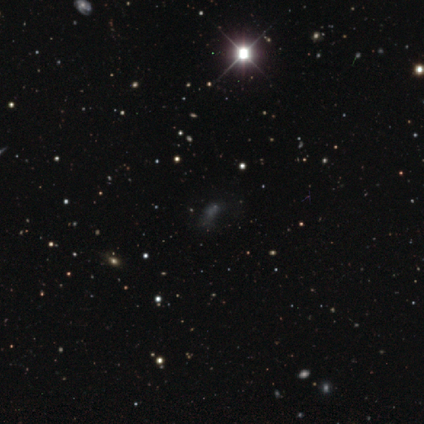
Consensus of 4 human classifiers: Smooth or featured? 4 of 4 (100%) said star or artifact.